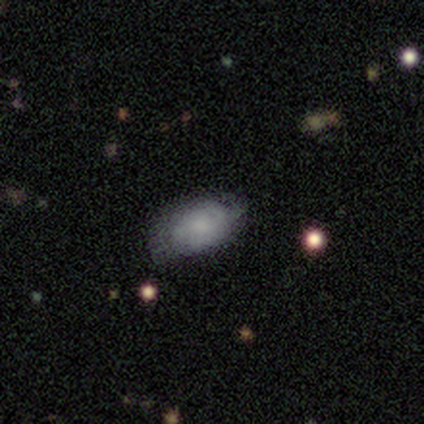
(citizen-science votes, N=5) A featured or disk galaxy (60%) with no bar (100%), 2 (50%, tied with 4) tight (50%, tied with loose) spiral arms (67%) and a small central bulge (67%). Merging: none (100%).